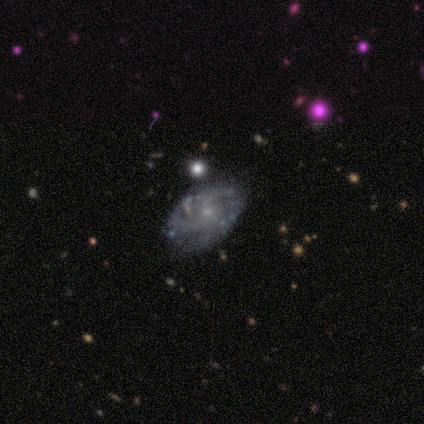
A featured or disk galaxy (80%) with a weak bar (50%, tied with no), medium (75%) spiral arms (100%) and a small central bulge (75%). Merging: minor disturbance (60%).